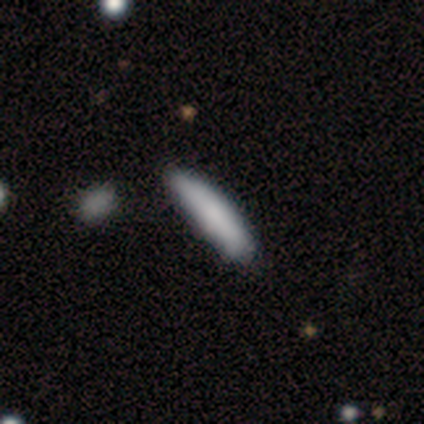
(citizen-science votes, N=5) Morphology: type=smooth (80%); roundness=cigar-shaped (100%); merging=none (40%, tied with minor disturbance).